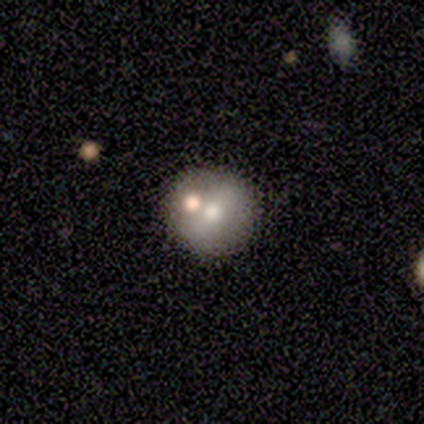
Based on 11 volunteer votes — Smooth or featured? 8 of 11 (73%) said smooth. How rounded? 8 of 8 (100%) said round. Merging? 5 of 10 (50%) said none.